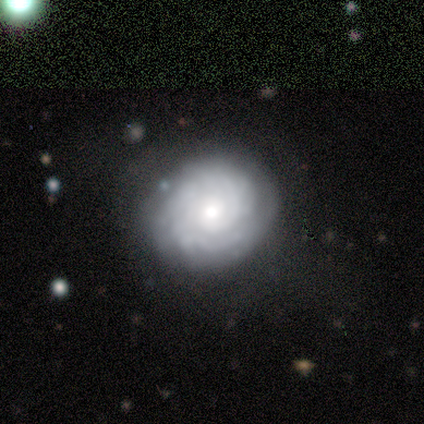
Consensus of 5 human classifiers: A featured or disk galaxy (80%) with no bar (100%), tight (67%) spiral arms (75%) and a moderate central bulge (75%).

Vote fractions:
- Smooth or featured? featured or disk: 80% / smooth: 20% / star or artifact: 0%
- Edge-on disk? no: 100% / yes: 0%
- Bar? no: 100% / strong: 0% / weak: 0%
- Spiral arms? yes: 75% / no: 25%
- Spiral winding? tight: 67% / medium: 33% / loose: 0%
- Spiral arm count? can't tell: 67% / 2: 33% / 1: 0% / 3: 0% / 4: 0% / more than 4: 0%
- Bulge size? moderate: 75% / small: 25% / dominant: 0% / large: 0% / none: 0%
- Merging? none: 80% / minor disturbance: 20% / major disturbance: 0% / merger: 0%